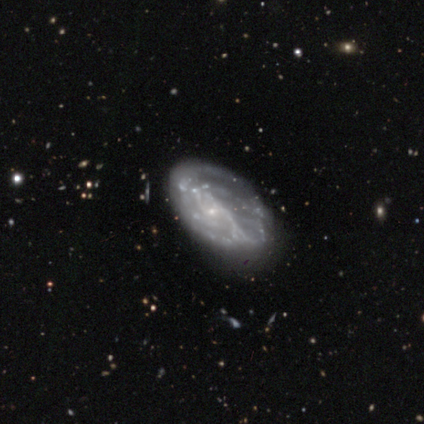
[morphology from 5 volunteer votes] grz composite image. It shows a featured or disk galaxy (80%) with a weak bar (75%), 2 (67%) medium (67%) spiral arms (75%) and a small central bulge (50%, tied with none). Merging: none (60%).